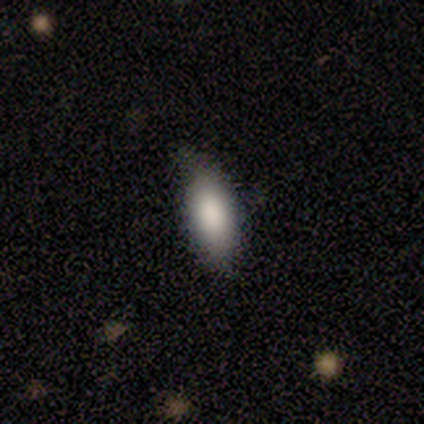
Smooth or featured?
  - smooth: 100% *
  - featured or disk: 0%
  - star or artifact: 0%
How rounded?
  - in between: 86% *
  - cigar-shaped: 14%
  - round: 0%
Merging?
  - none: 57% *
  - minor disturbance: 29%
  - major disturbance: 14%
  - merger: 0%